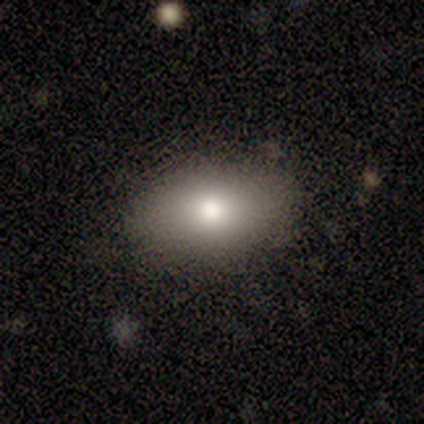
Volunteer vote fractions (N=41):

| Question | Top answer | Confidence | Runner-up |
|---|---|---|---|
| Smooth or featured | smooth | 85% | featured or disk (10%) |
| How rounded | in between | 86% | round (11%) |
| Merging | none | 90% | minor disturbance (10%) |